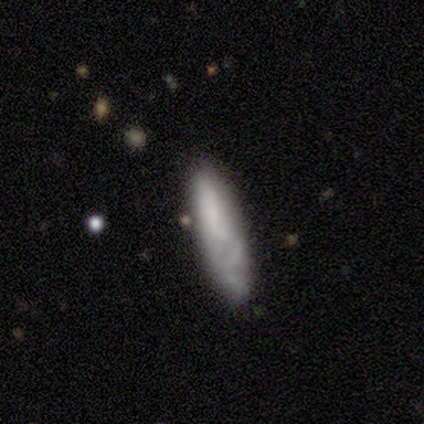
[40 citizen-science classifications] Volunteers were most divided on "how rounded": in between: 52%, cigar-shaped: 48%, round: 0%. More confident: smooth or featured — smooth (52%); merging — none (51%).